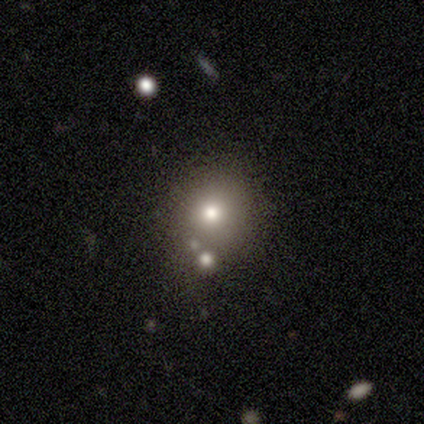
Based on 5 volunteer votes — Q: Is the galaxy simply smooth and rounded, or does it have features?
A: smooth — 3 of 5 (60%).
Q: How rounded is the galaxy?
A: round — 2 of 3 (67%).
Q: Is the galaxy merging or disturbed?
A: none — 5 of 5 (100%).